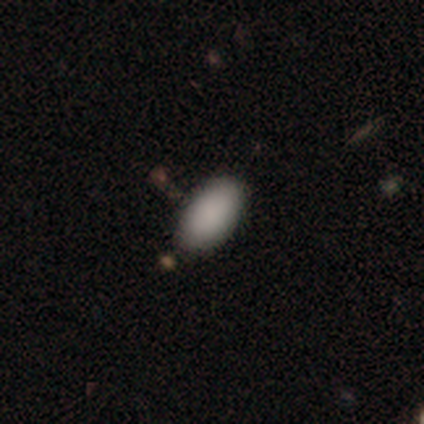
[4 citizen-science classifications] smooth 75%, featured or disk 25%, star or artifact 0%. Down the decision tree: how rounded — in between (100%); merging — none (75%).